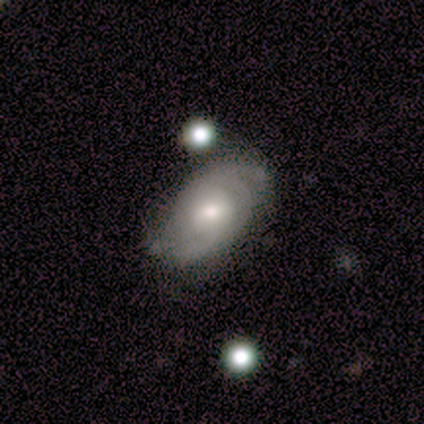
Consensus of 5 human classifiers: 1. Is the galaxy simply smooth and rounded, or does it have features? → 80% featured or disk, 20% smooth, 0% star or artifact.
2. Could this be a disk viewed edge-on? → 75% no, 25% yes.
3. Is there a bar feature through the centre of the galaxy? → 67% no, 33% weak, 0% strong.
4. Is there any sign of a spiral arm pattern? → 100% yes, 0% no.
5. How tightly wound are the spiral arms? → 67% tight, 33% loose, 0% medium.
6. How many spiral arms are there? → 100% 2, 0% 1, 0% 3, 0% 4, 0% more than 4, 0% can't tell.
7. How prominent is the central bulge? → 67% moderate, 33% small, 0% dominant, 0% large, 0% none.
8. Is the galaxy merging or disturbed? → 80% none, 20% minor disturbance, 0% major disturbance, 0% merger.